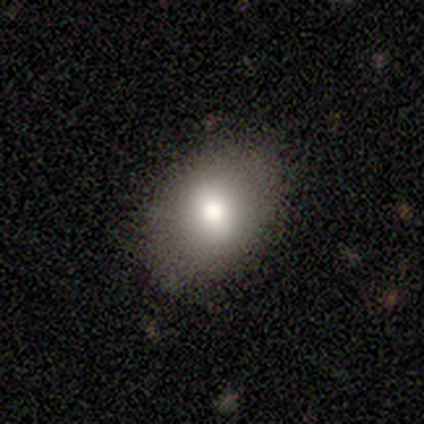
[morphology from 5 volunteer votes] Overall: smooth (100%). How rounded: in between (80%). Merging: none (100%).